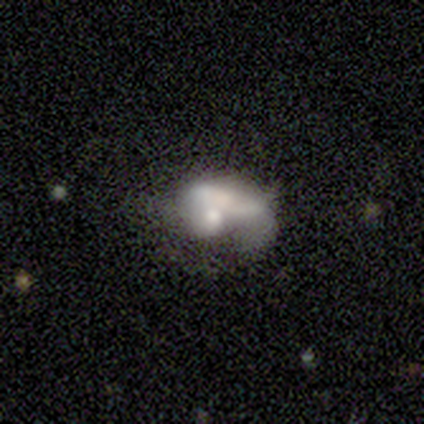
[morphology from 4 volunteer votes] A featured or disk galaxy (100%) with no bar (75%), no spiral arms (75%) and a small central bulge (50%).

Vote fractions:
- Smooth or featured? featured or disk: 100% / smooth: 0% / star or artifact: 0%
- Edge-on disk? no: 100% / yes: 0%
- Bar? no: 75% / weak: 25% / strong: 0%
- Spiral arms? no: 75% / yes: 25%
- Bulge size? small: 50% / dominant: 25% / large: 25% / moderate: 0% / none: 0%
- Merging? merger: 100% / none: 0% / minor disturbance: 0% / major disturbance: 0%